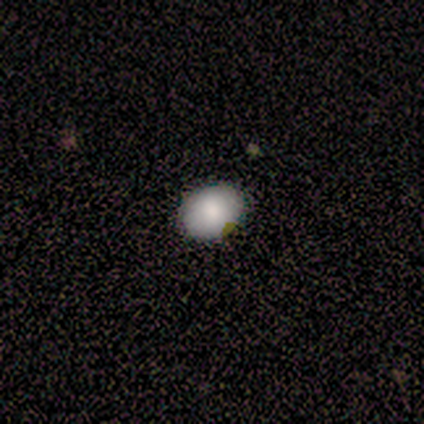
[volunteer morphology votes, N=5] Smooth or featured?
  - smooth: 100% *
  - featured or disk: 0%
  - star or artifact: 0%
How rounded?
  - round: 60% *
  - in between: 40%
  - cigar-shaped: 0%
Merging?
  - none: 60% *
  - minor disturbance: 40%
  - major disturbance: 0%
  - merger: 0%